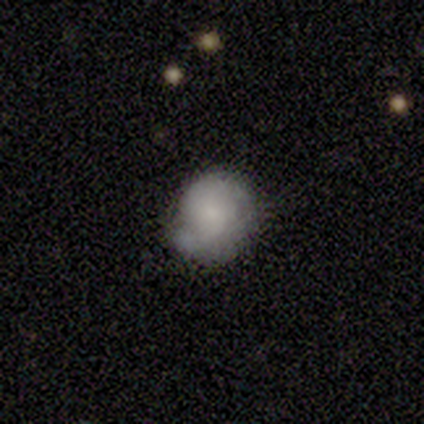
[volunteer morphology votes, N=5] smooth 40% (tied), featured or disk 40% (tied), star or artifact 20%. Down the decision tree: how rounded — round (50%, tied with in between); merging — none (75%).